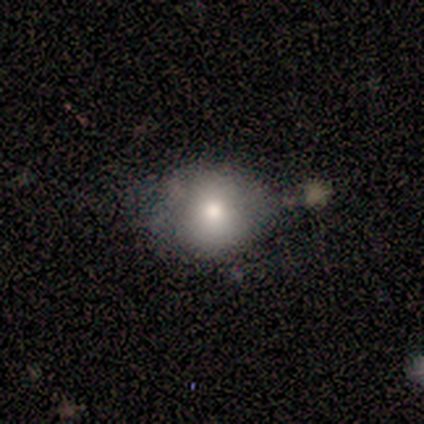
smooth-or-featured: smooth: 75% | star or artifact: 25% | featured or disk: 0%
  how-rounded: round: 67% | in between: 33% | cigar-shaped: 0%
  merging: none: 67% | merger: 33% | minor disturbance: 0% | major disturbance: 0%